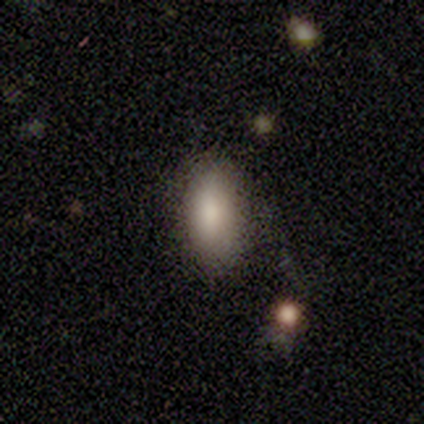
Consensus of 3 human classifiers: smooth-or-featured: smooth: 67% | star or artifact: 33% | featured or disk: 0%
  how-rounded: in between: 50% (tied) | cigar-shaped: 50% (tied) | round: 0%
  merging: none: 50% (tied) | merger: 50% (tied) | minor disturbance: 0% | major disturbance: 0%